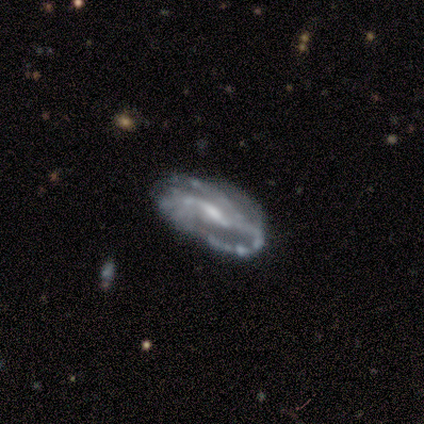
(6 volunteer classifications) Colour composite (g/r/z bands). It shows a featured or disk galaxy (67%) with a strong bar (50%, tied with weak), 2 (100%) tight (100%) spiral arms (75%) and a small central bulge (50%). Merging: none (67%).